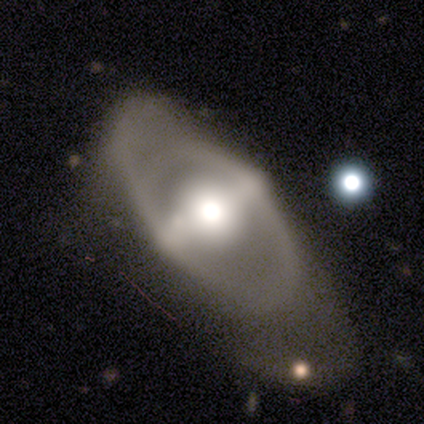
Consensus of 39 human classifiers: A featured or disk galaxy (69%) with a strong bar (68%), no spiral arms (52%) and a moderate central bulge (56%). Merging: major disturbance (34%).